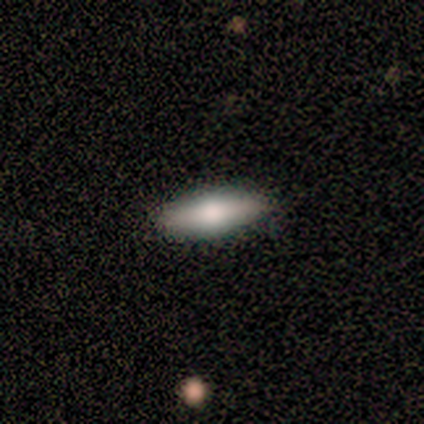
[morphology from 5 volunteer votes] This is likely a smooth galaxy (60%). How rounded: clearly cigar-shaped (100%). Merging: clearly none (80%).